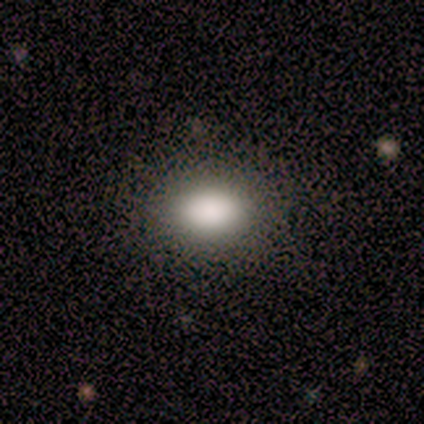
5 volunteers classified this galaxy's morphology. A smooth galaxy with no disk features (100%) that is in between round and cigar-shaped (100%). Merging: none (80%).